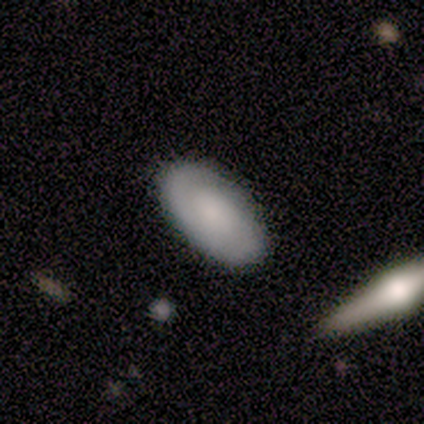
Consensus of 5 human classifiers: This appears to be a smooth galaxy with no disk features (80%) that is in between round and cigar-shaped (100%). Merging: none (100%).